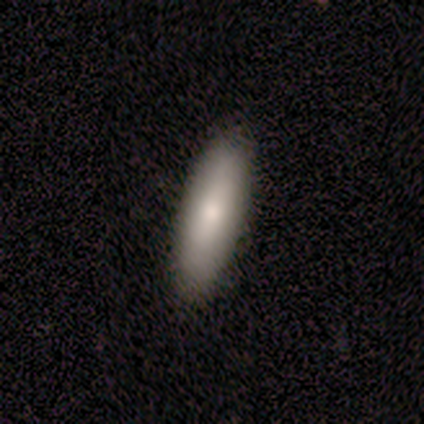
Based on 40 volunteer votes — Volunteers were most divided on "how rounded": cigar-shaped: 54%, in between: 46%, round: 0%. More confident: smooth or featured — smooth (88%); merging — none (64%).